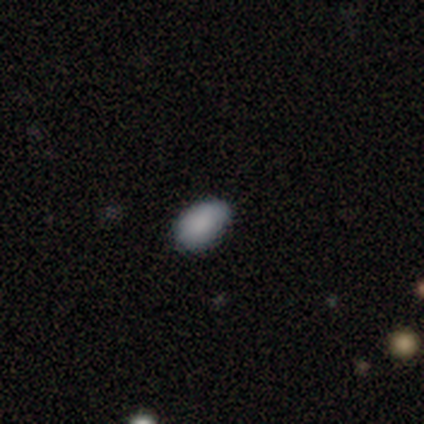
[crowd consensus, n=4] smooth_or_featured: smooth (p=1.00)
how_rounded: in between (p=0.75) [alt: cigar-shaped p=0.25]
merging: none (p=0.75) [alt: merger p=0.25]